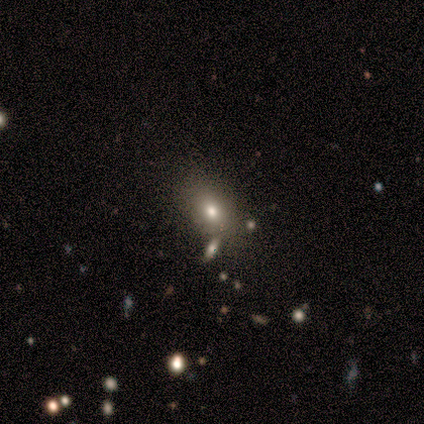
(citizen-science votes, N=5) Smooth or featured? smooth (60%)
How rounded? in between (67%)
Merging? none (67%)